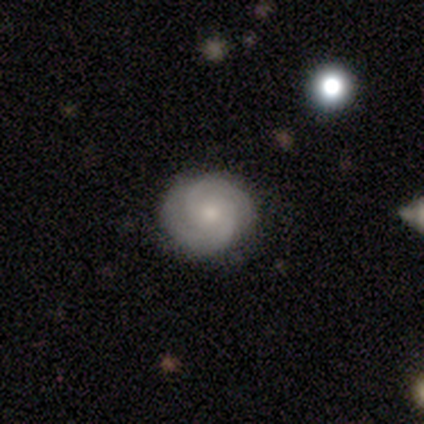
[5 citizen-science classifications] smooth-or-featured: featured or disk: 80% | smooth: 20% | star or artifact: 0%
  disk-edge-on: no: 100% | yes: 0%
    bar: no: 75% | weak: 25% | strong: 0%
    has-spiral-arms: yes: 100% | no: 0%
      spiral-winding: tight: 75% | loose: 25% | medium: 0%
      spiral-arm-count: 2: 75% | 3: 25% | 1: 0% | 4: 0% | more than 4: 0% | can't tell: 0%
    bulge-size: small: 50% | large: 25% | moderate: 25% | dominant: 0% | none: 0%
  merging: none: 80% | minor disturbance: 20% | major disturbance: 0% | merger: 0%